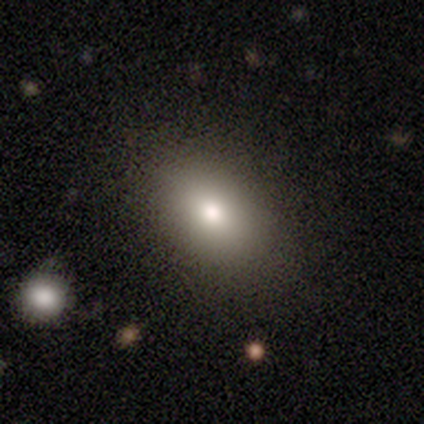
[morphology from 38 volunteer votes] smooth 84%, star or artifact 11%, featured or disk 5%. Down the decision tree: how rounded — in between (97%); merging — none (85%).